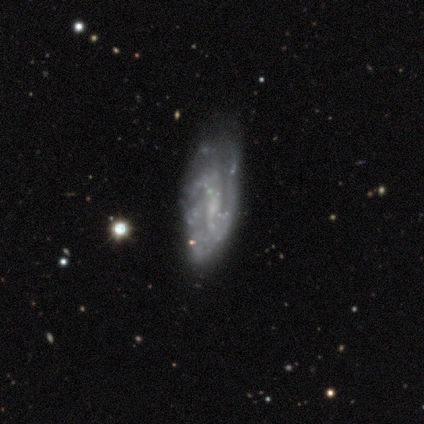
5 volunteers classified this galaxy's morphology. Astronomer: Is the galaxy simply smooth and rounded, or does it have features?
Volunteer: featured or disk — 100%.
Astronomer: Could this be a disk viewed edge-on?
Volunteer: no — 100%.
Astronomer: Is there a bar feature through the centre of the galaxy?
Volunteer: weak — 60% (runner-up: no, 40%).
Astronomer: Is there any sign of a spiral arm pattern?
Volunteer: yes — 80%.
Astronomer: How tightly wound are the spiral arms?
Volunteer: medium — 75%.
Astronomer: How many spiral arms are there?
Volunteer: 2 — 25%, tied with 3, more than 4 and can't tell at 25%.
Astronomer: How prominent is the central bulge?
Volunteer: small — 60% (runner-up: none, 40%).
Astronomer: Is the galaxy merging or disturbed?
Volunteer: none — 80%.